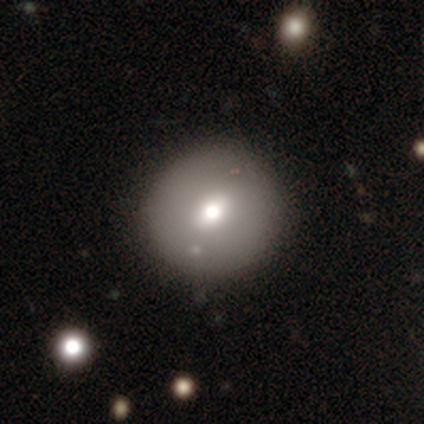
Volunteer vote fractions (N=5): Q: Smooth or featured?
A: smooth (60%); runner-up: featured or disk (20%)
Q: How rounded?
A: round (100%)
Q: Merging?
A: none (75%); runner-up: merger (25%)